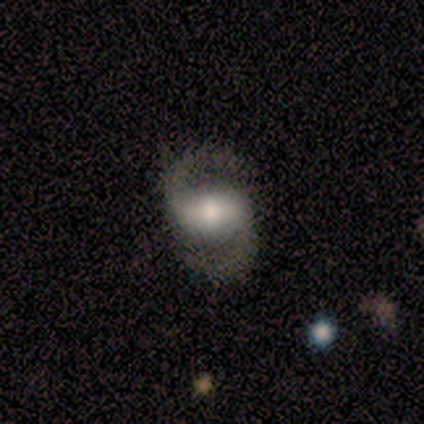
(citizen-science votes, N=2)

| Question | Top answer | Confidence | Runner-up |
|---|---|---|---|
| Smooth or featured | smooth | 50% | tied: featured or disk (50%) |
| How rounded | in between | 100% | — |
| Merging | none | 50% | tied: major disturbance (50%) |